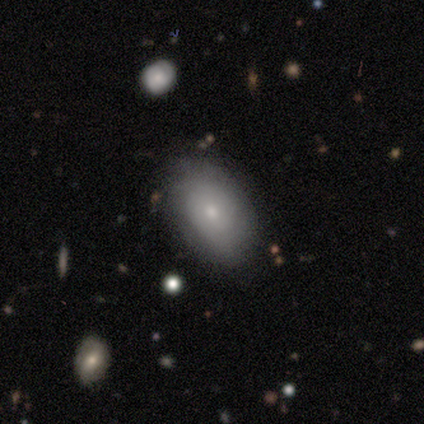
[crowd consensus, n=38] Smooth or featured? 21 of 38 (55%) said smooth. How rounded? 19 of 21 (90%) said in between. Merging? 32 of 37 (86%) said none.